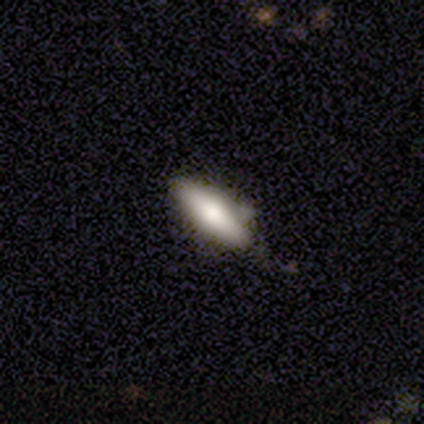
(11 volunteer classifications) A smooth galaxy with no disk features (73%) that is cigar-shaped (62%). Merging: none (64%).